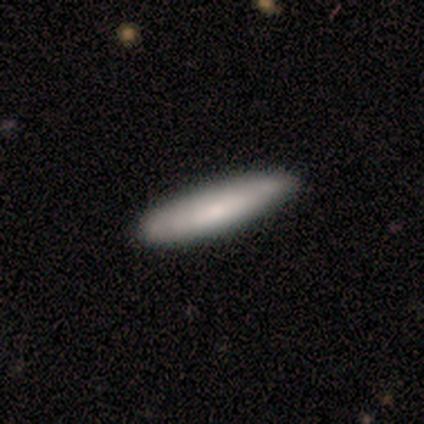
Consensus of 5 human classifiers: A smooth galaxy with no disk features (80%) that is cigar-shaped (75%).

Vote fractions:
- Smooth or featured? smooth: 80% / featured or disk: 20% / star or artifact: 0%
- How rounded? cigar-shaped: 75% / in between: 25% / round: 0%
- Merging? none: 80% / minor disturbance: 20% / major disturbance: 0% / merger: 0%